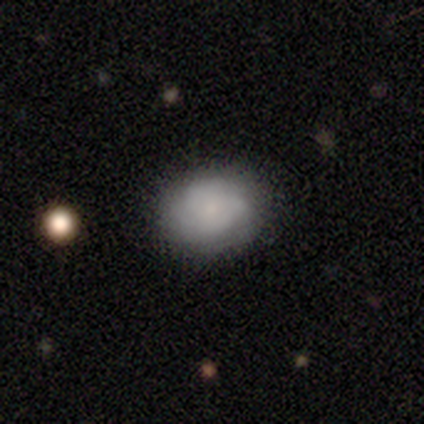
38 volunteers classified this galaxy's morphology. Smooth or featured?
  - smooth: 63% *
  - featured or disk: 34%
  - star or artifact: 3%
How rounded?
  - in between: 58% *
  - round: 42%
  - cigar-shaped: 0%
Merging?
  - none: 73% *
  - minor disturbance: 19%
  - major disturbance: 8%
  - merger: 0%